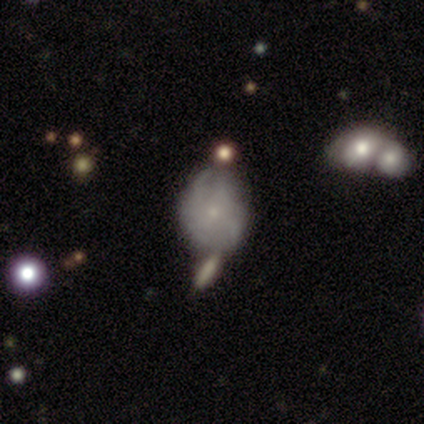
Overall: featured or disk (80%). Edge-on disk: no (100%). Bar: no (75%). Spiral arms: yes (50%, tied with no). Spiral arm count: 2 (50%, tied with can't tell). Spiral winding: tight (50%, tied with loose). Bulge size: small (100%). Merging: merger (40%; none 20%).